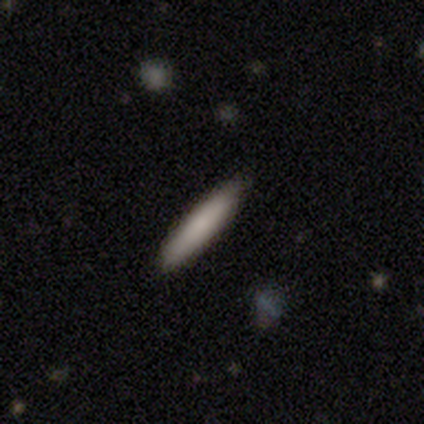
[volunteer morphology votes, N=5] A smooth galaxy with no disk features (80%) that is cigar-shaped (100%). Merging: none (100%).